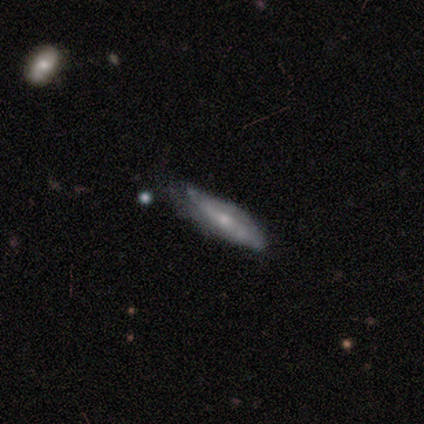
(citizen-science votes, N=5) smooth 60%, featured or disk 40%, star or artifact 0%. Down the decision tree: how rounded — cigar-shaped (100%); merging — none (80%).